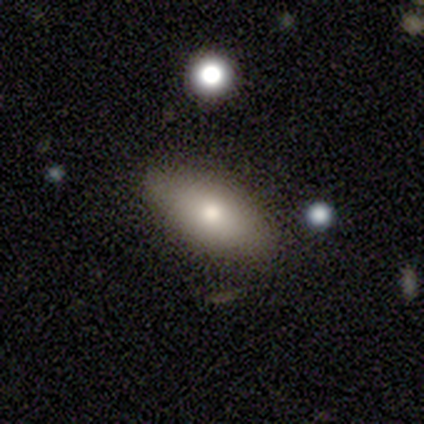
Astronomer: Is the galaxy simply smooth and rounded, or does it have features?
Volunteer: smooth — 100%.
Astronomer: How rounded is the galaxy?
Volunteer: in between — 60%.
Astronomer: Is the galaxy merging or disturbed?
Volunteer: none — 60%.